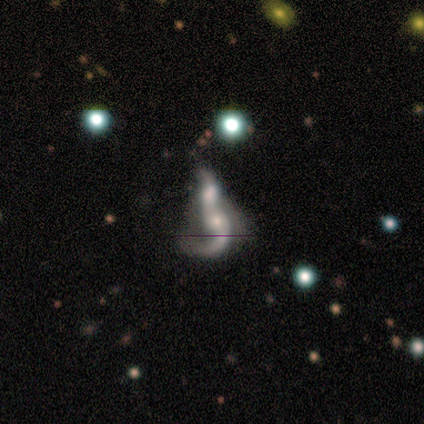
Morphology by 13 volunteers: Smooth or featured? featured or disk (54%)
Edge-on disk? no (100%)
Bar? no (57%)
Spiral arms? yes (100%)
Spiral winding? loose (71%)
Spiral arm count? 1 (43%, tied with 2)
Bulge size? small (43%)
Merging? merger (77%)